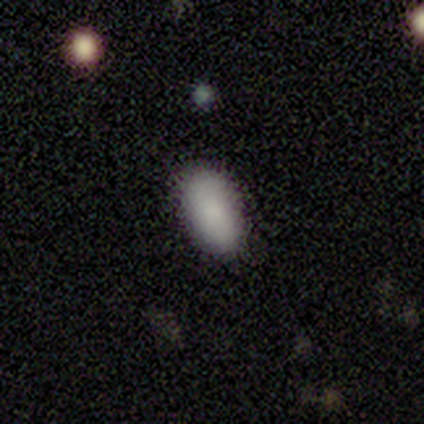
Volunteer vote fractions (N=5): Smooth or featured?
  - smooth: 100% *
  - featured or disk: 0%
  - star or artifact: 0%
How rounded?
  - in between: 100% *
  - round: 0%
  - cigar-shaped: 0%
Merging?
  - none: 100% *
  - minor disturbance: 0%
  - major disturbance: 0%
  - merger: 0%